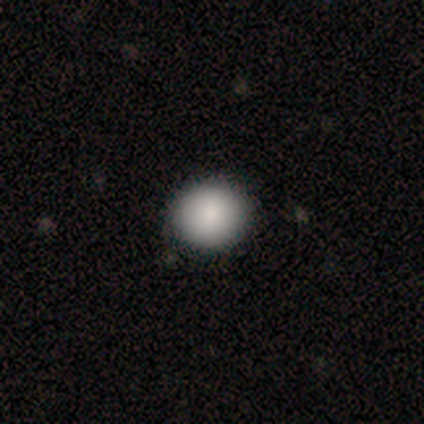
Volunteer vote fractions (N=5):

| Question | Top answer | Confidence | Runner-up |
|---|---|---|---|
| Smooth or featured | smooth | 60% | featured or disk (20%) |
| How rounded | round | 100% | — |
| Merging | none | 100% | — |